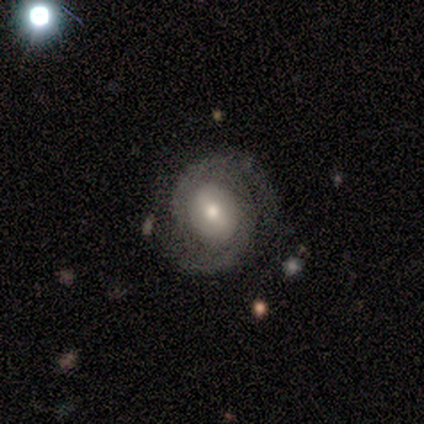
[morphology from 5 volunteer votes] featured or disk 100%, smooth 0%, star or artifact 0%. Down the decision tree: edge-on disk — no (100%); bar — weak (60%); spiral arms — yes (100%); spiral arm count — 2 (100%); spiral winding — medium (80%); bulge size — large (40%, tied with moderate); merging — none (80%).